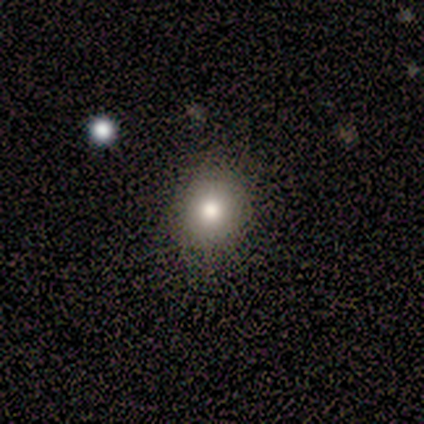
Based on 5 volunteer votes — This appears to be a smooth galaxy with no disk features (60%) that is round (67%). Merging: none (100%).